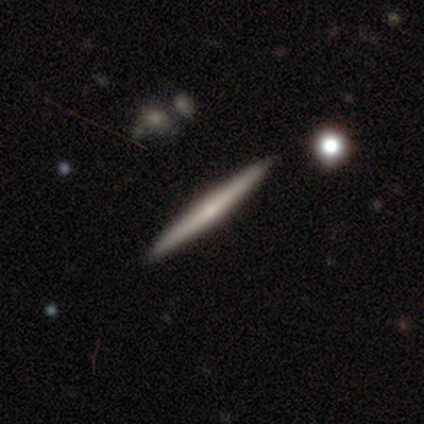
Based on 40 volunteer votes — Smooth or featured? 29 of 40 (72%) said featured or disk. Edge-on disk? 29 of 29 (100%) said yes. Edge-on bulge? 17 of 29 (59%) said none. Merging? 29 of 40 (72%) said none.